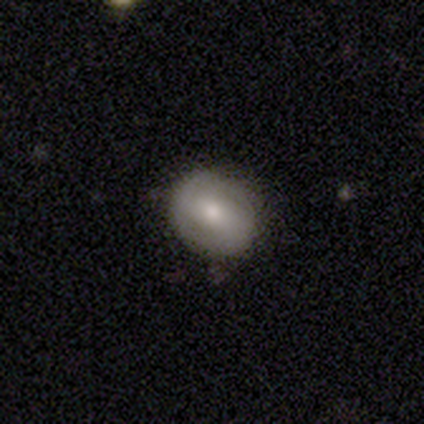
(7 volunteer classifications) smooth_or_featured: smooth (p=0.86) [alt: featured or disk p=0.14]
how_rounded: in between (p=0.83) [alt: round p=0.17]
merging: none (p=0.86) [alt: minor disturbance p=0.14]